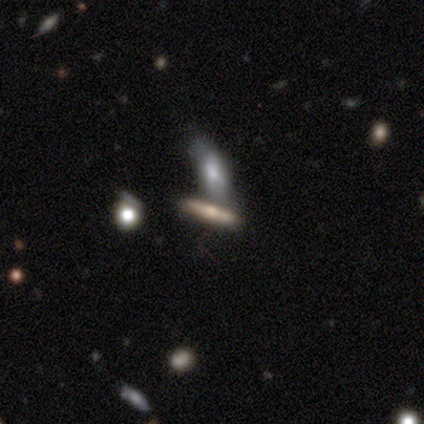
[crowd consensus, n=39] A featured or disk galaxy (51%) viewed edge-on (95%) with a rounded central bulge (95%).

Vote fractions:
- Smooth or featured? featured or disk: 51% / smooth: 33% / star or artifact: 15%
- Edge-on disk? yes: 95% / no: 5%
- Edge-on bulge? rounded: 95% / none: 5% / boxy: 0%
- Merging? merger: 52% / none: 33% / minor disturbance: 9% / major disturbance: 6%